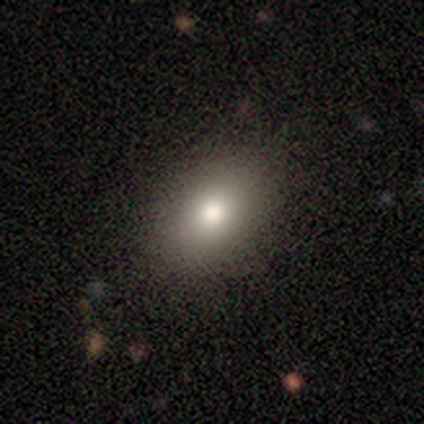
Smooth or featured?
  - smooth: 77% *
  - featured or disk: 13%
  - star or artifact: 10%
How rounded?
  - in between: 77% *
  - round: 22%
  - cigar-shaped: 2%
Merging?
  - none: 37% *
  - minor disturbance: 14%
  - major disturbance: 0%
  - merger: 0%